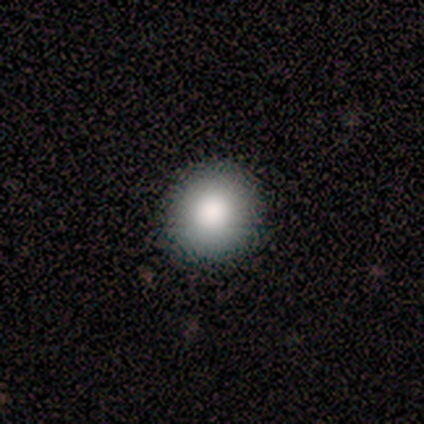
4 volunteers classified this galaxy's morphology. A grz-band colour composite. It shows a smooth galaxy with no disk features (75%) that is round (100%). Merging: none (100%).